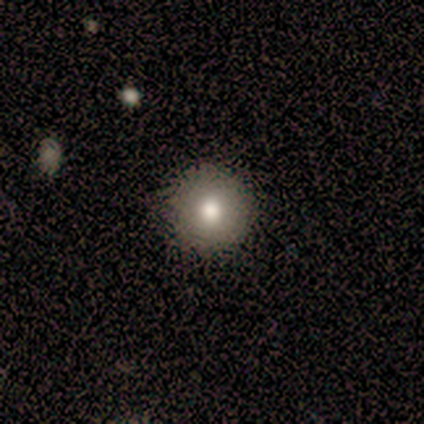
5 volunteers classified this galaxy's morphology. Smooth or featured? smooth (80%)
How rounded? round (100%)
Merging? none (100%)